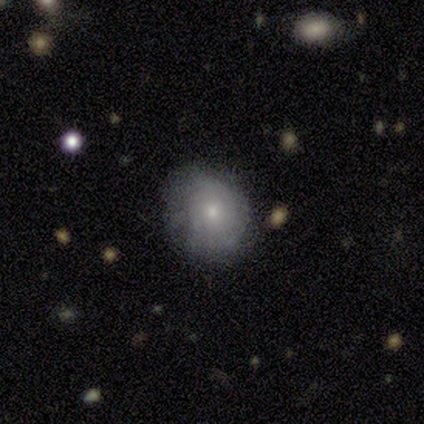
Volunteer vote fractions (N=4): This is possibly a featured or disk galaxy (50%). It is clearly not viewed edge-on (100%). Bar: clearly no (100%). Spiral arm pattern: possibly yes (50%, tied with no). Spiral arm count: clearly 2 (100%). Spiral winding: clearly loose (100%). Central bulge: clearly moderate (100%). Merging: clearly none (100%).